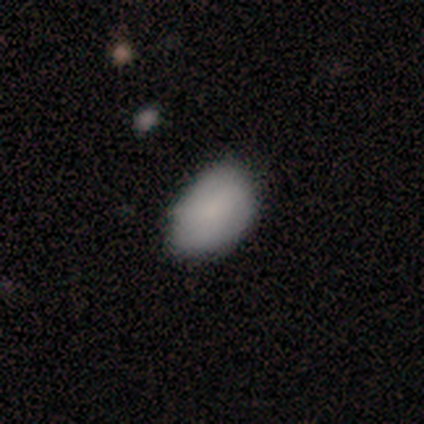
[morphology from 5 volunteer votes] Overall: smooth (100%). How rounded: in between (100%). Merging: none (60%; minor disturbance 20%).